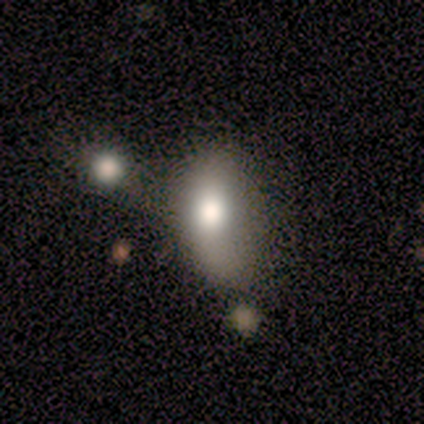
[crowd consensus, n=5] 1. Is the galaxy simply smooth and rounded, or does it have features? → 100% smooth, 0% featured or disk, 0% star or artifact.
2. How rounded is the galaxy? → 80% in between, 20% cigar-shaped, 0% round.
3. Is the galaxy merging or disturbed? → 80% none, 20% minor disturbance, 0% major disturbance, 0% merger.